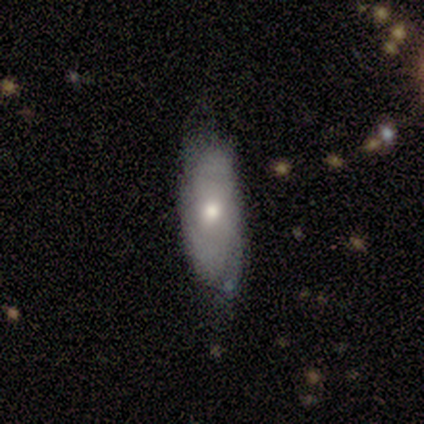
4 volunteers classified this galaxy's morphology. smooth-or-featured: smooth: 75% | featured or disk: 25% | star or artifact: 0%
  how-rounded: in between: 100% | round: 0% | cigar-shaped: 0%
  merging: none: 100% | minor disturbance: 0% | major disturbance: 0% | merger: 0%